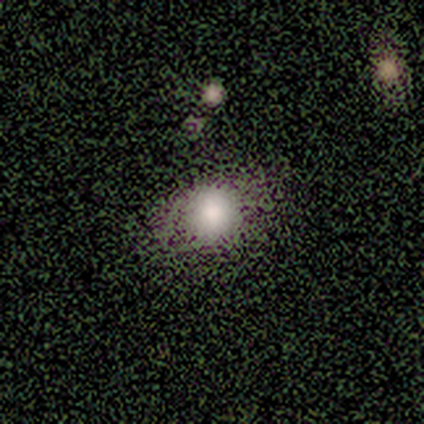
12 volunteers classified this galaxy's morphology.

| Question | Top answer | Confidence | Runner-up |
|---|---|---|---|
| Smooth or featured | smooth | 83% | star or artifact (17%) |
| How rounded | round | 80% | in between (20%) |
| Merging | none | 80% | minor disturbance (20%) |